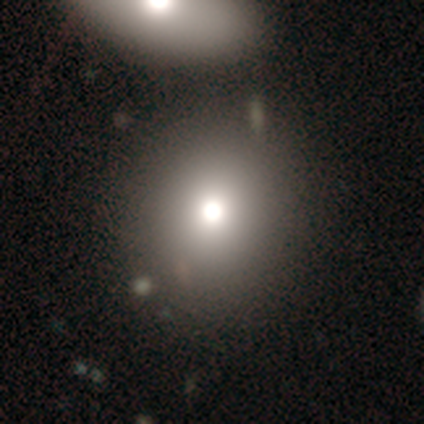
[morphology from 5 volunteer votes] smooth 100%, featured or disk 0%, star or artifact 0%. Down the decision tree: how rounded — round (80%); merging — none (80%).